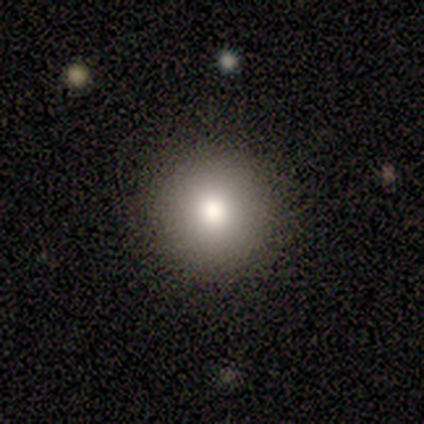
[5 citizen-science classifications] smooth-or-featured: smooth: 60% | featured or disk: 40% | star or artifact: 0%
  how-rounded: round: 100% | in between: 0% | cigar-shaped: 0%
  merging: none: 80% | minor disturbance: 20% | major disturbance: 0% | merger: 0%